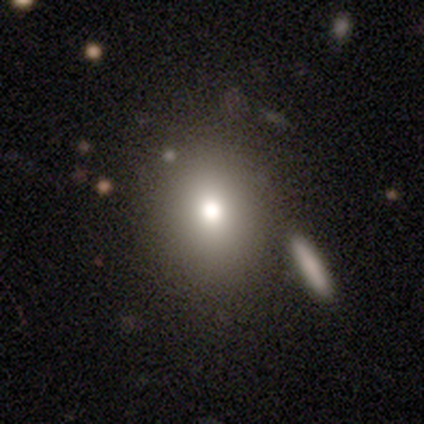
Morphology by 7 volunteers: Smooth or featured?
  - smooth: 71% *
  - star or artifact: 29%
  - featured or disk: 0%
How rounded?
  - round: 60% *
  - in between: 20%
  - cigar-shaped: 20%
Merging?
  - none: 80% *
  - minor disturbance: 20%
  - major disturbance: 0%
  - merger: 0%